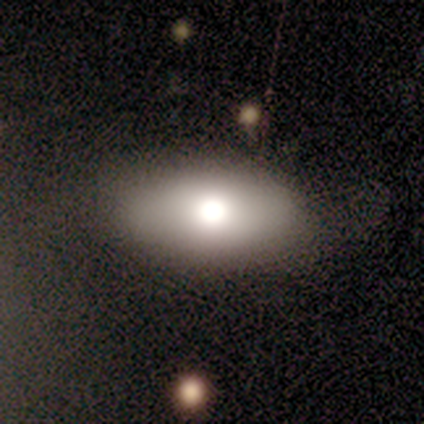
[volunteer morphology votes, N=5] Smooth or featured? smooth (80%)
How rounded? in between (100%)
Merging? none (80%)